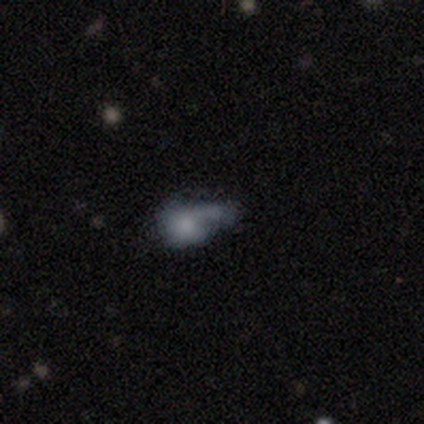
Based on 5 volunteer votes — Q: Smooth or featured?
A: smooth (60%); runner-up: star or artifact (40%)
Q: How rounded?
A: in between (67%); runner-up: round (33%)
Q: Merging?
A: major disturbance (67%); runner-up: minor disturbance (33%)